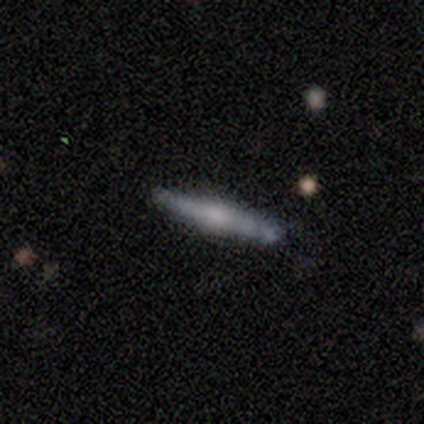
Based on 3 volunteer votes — A featured or disk galaxy (67%) viewed edge-on (100%) with no central bulge (50%, tied with rounded). Merging: none (67%).